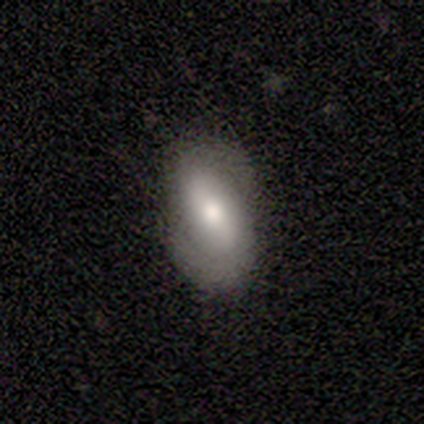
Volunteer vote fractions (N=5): Smooth or featured? 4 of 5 (80%) said featured or disk. Edge-on disk? 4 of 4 (100%) said no. Bar? 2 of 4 (50%) said strong. Spiral arms? 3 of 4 (75%) said yes. Spiral winding? 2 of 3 (67%) said tight. Spiral arm count? 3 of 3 (100%) said 2. Bulge size? 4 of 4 (100%) said moderate. Merging? 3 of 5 (60%) said none.